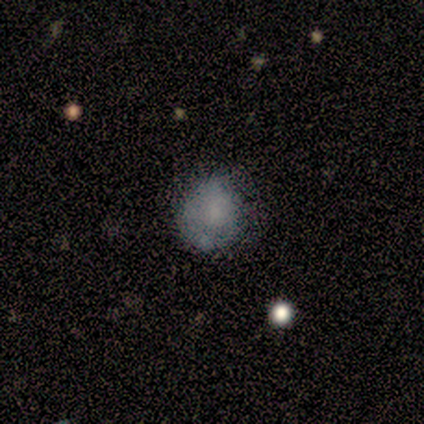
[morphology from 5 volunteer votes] Q: Smooth or featured?
A: smooth (100%)
Q: How rounded?
A: round (60%); runner-up: in between (40%)
Q: Merging?
A: minor disturbance (60%); runner-up: none (40%)